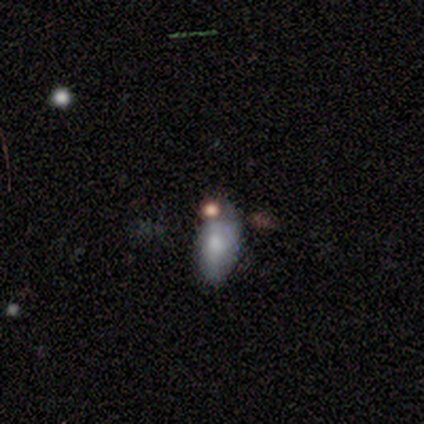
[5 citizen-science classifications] smooth_or_featured: smooth (p=1.00)
how_rounded: in between (p=0.80) [alt: cigar-shaped p=0.20]
merging: none (p=0.40) [tied with: merger p=0.40]